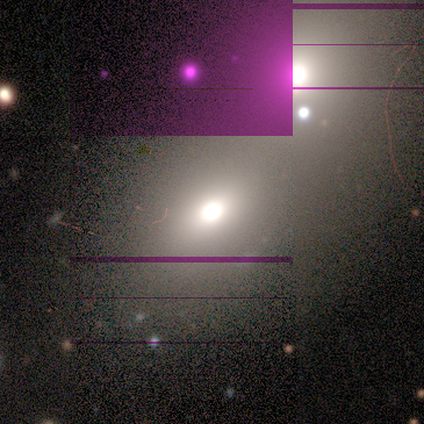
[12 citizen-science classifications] smooth-or-featured: smooth: 58% | star or artifact: 25% | featured or disk: 17%
  how-rounded: in between: 100% | round: 0% | cigar-shaped: 0%
  merging: none: 56% | merger: 33% | minor disturbance: 11% | major disturbance: 0%